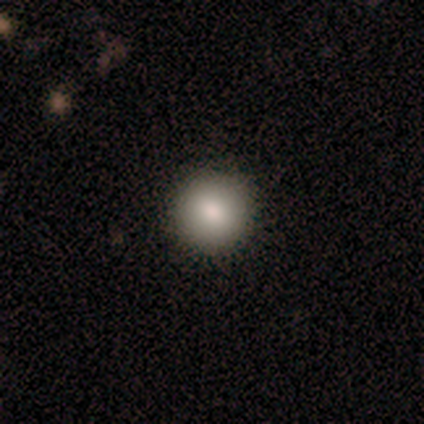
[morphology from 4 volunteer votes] Overall: smooth (100%). How rounded: round (100%). Merging: none (100%).